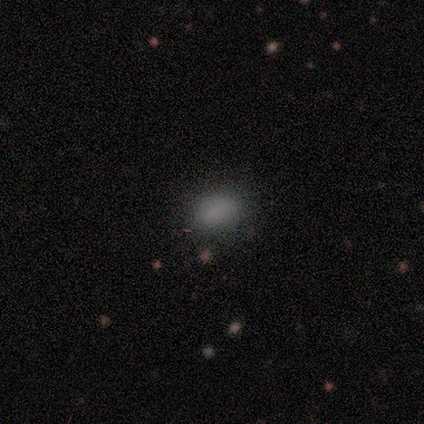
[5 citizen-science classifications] smooth_or_featured: smooth (p=0.80) [alt: featured or disk p=0.20]
how_rounded: in between (p=0.75) [alt: round p=0.25]
merging: none (p=0.80) [alt: minor disturbance p=0.20]